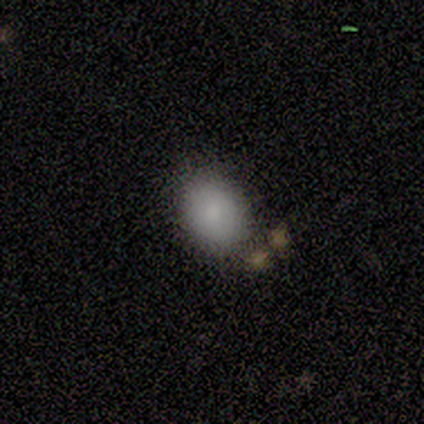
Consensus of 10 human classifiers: smooth-or-featured: smooth: 90% | star or artifact: 10% | featured or disk: 0%
  how-rounded: round: 56% | in between: 44% | cigar-shaped: 0%
  merging: none: 89% | minor disturbance: 11% | major disturbance: 0% | merger: 0%